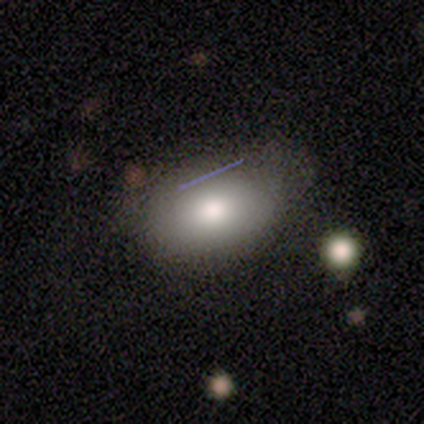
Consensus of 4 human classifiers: Smooth or featured: smooth — 75% (featured or disk — 25%)
How rounded: in between — 100%
Merging: minor disturbance — 50% (none — 25%)